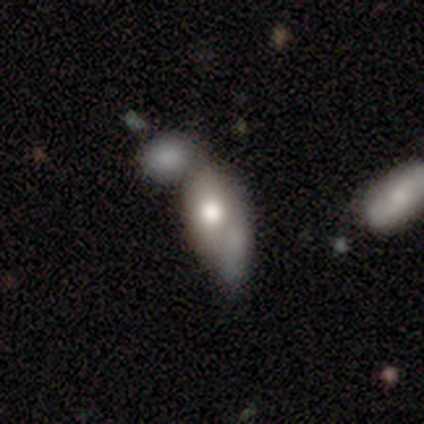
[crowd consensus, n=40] smooth 68%, featured or disk 28%, star or artifact 5%. Down the decision tree: how rounded — in between (100%); merging — merger (45%).